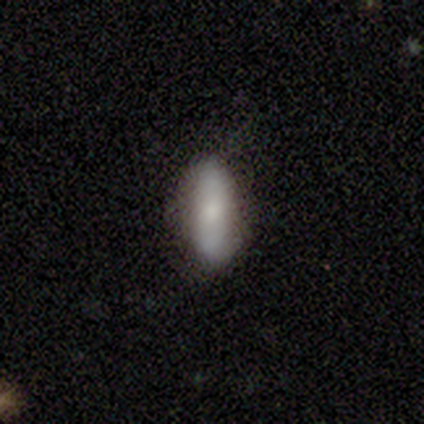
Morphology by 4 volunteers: Volunteers were most divided on "smooth or featured": smooth: 75%, featured or disk: 25%, star or artifact: 0%. More confident: how rounded — cigar-shaped (100%); merging — none (75%).